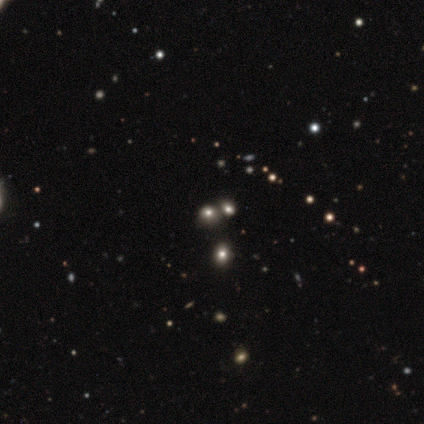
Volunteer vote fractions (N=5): This is likely a star or artifact rather than a galaxy (60%).